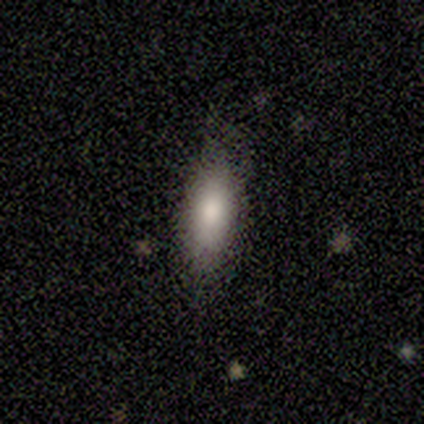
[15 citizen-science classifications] This is clearly a smooth galaxy (80%). How rounded: likely in between (75%). Merging: likely none (79%).